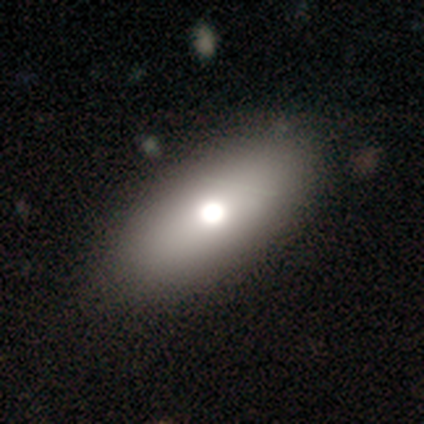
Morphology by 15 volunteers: Volunteers were most divided on "merging": none: 58%, minor disturbance: 25%, major disturbance: 17%, merger: 0%. More confident: how rounded — in between (67%); smooth or featured — smooth (60%).